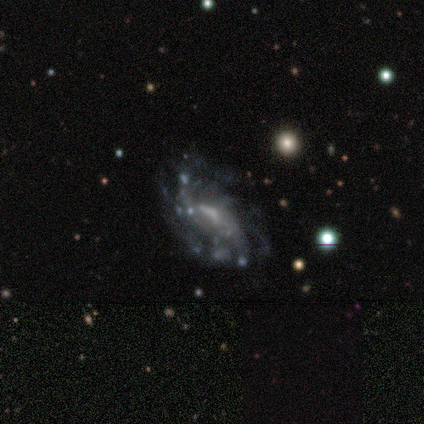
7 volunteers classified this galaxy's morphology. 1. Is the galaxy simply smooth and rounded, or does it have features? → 86% featured or disk, 14% smooth, 0% star or artifact.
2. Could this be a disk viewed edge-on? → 100% no, 0% yes.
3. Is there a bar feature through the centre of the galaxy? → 67% no, 33% weak, 0% strong.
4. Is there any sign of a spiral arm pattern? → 67% yes, 33% no.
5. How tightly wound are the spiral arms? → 75% medium, 25% tight, 0% loose.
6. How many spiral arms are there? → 75% can't tell, 25% 3, 0% 1, 0% 2, 0% 4, 0% more than 4.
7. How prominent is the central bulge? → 50% none, 33% moderate, 17% small, 0% dominant, 0% large.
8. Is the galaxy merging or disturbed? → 43% major disturbance, 29% none, 29% minor disturbance, 0% merger.